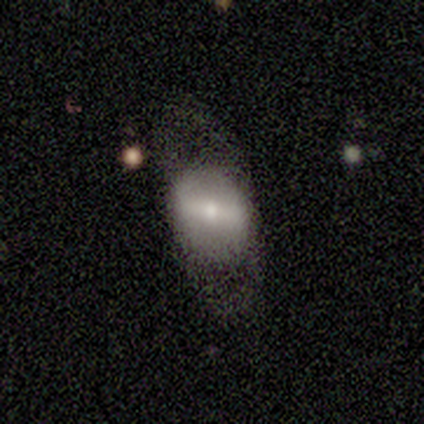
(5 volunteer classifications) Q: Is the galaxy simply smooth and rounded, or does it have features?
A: smooth — 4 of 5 (80%).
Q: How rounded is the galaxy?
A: round — 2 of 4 (50%, tied with in between).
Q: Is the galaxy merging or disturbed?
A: none — 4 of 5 (80%).